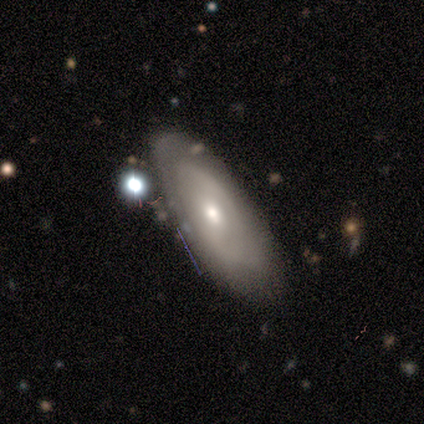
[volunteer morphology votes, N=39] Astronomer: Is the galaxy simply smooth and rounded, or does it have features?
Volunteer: featured or disk — 56% (runner-up: smooth, 33%).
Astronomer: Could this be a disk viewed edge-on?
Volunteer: no — 86%.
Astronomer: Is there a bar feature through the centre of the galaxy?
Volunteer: no — 47% (runner-up: strong, 32%).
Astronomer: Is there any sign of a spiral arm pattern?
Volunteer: yes — 58% (runner-up: no, 42%).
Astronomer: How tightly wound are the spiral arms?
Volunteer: medium — 45% (runner-up: tight, 27%).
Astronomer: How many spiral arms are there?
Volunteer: can't tell — 45% (runner-up: 2, 27%).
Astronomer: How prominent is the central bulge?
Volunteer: moderate — 53% (runner-up: small, 32%).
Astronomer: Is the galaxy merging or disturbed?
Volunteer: none — 63%.